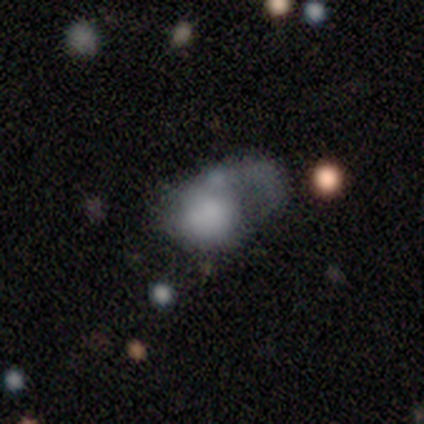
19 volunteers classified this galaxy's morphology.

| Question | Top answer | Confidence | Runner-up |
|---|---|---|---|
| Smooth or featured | smooth | 74% | featured or disk (21%) |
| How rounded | in between | 57% | round (43%) |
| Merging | major disturbance | 72% | merger (17%) |